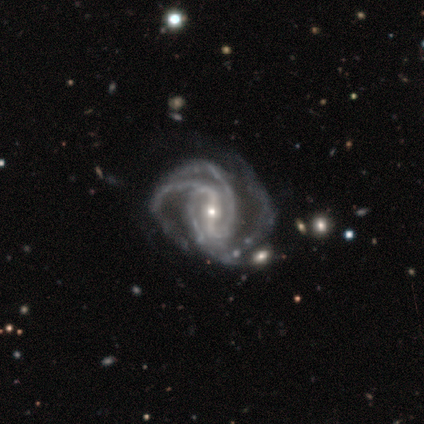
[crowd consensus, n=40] Smooth or featured? 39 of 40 (98%) said featured or disk. Edge-on disk? 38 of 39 (97%) said no. Bar? 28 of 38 (74%) said strong. Spiral arms? 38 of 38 (100%) said yes. Spiral winding? 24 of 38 (63%) said medium. Spiral arm count? 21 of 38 (55%) said 3. Bulge size? 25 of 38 (66%) said small. Merging? 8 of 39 (21%) said none.